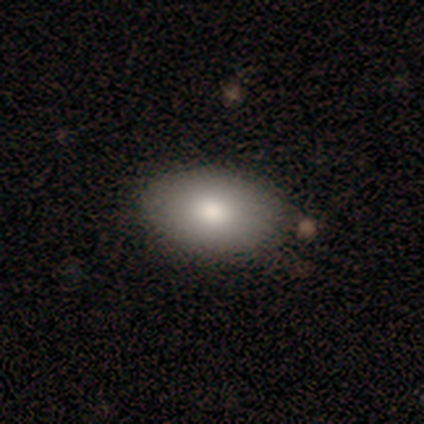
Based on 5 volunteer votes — Smooth or featured?
  - smooth: 100% *
  - featured or disk: 0%
  - star or artifact: 0%
How rounded?
  - in between: 80% *
  - round: 20%
  - cigar-shaped: 0%
Merging?
  - none: 100% *
  - minor disturbance: 0%
  - major disturbance: 0%
  - merger: 0%